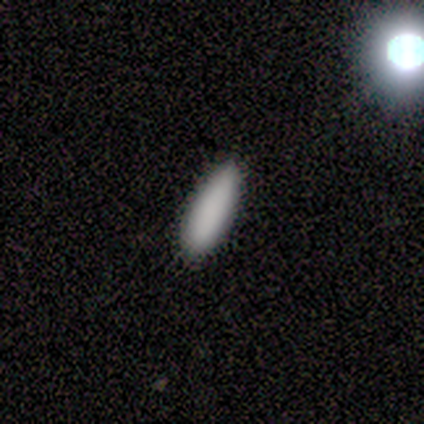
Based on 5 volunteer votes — This appears to be a smooth galaxy with no disk features (100%) that is in between round and cigar-shaped (100%). Merging: none (100%).